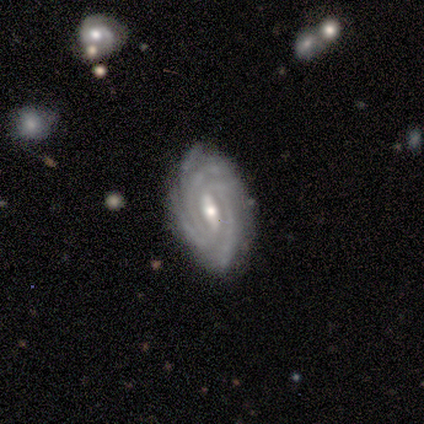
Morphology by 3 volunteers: smooth-or-featured: featured or disk: 100% | smooth: 0% | star or artifact: 0%
  disk-edge-on: no: 100% | yes: 0%
    bar: strong: 67% | weak: 33% | no: 0%
    has-spiral-arms: yes: 100% | no: 0%
      spiral-winding: tight: 100% | medium: 0% | loose: 0%
      spiral-arm-count: more than 4: 67% | 4: 33% | 1: 0% | 2: 0% | 3: 0% | can't tell: 0%
    bulge-size: small: 67% | moderate: 33% | dominant: 0% | large: 0% | none: 0%
  merging: none: 67% | minor disturbance: 33% | major disturbance: 0% | merger: 0%